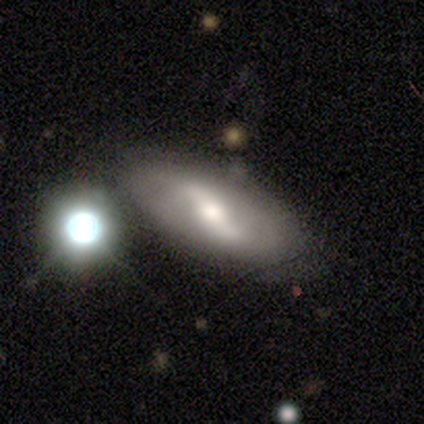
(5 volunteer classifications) A featured or disk galaxy (80%) with a strong bar (50%, tied with weak), 2 (100%) loose (67%) spiral arms (75%) and a moderate central bulge (100%).

Vote fractions:
- Smooth or featured? featured or disk: 80% / smooth: 20% / star or artifact: 0%
- Edge-on disk? no: 100% / yes: 0%
- Bar? strong: 50% (tied) / weak: 50% (tied) / no: 0%
- Spiral arms? yes: 75% / no: 25%
- Spiral winding? loose: 67% / medium: 33% / tight: 0%
- Spiral arm count? 2: 100% / 1: 0% / 3: 0% / 4: 0% / more than 4: 0% / can't tell: 0%
- Bulge size? moderate: 100% / dominant: 0% / large: 0% / small: 0% / none: 0%
- Merging? none: 100% / minor disturbance: 0% / major disturbance: 0% / merger: 0%